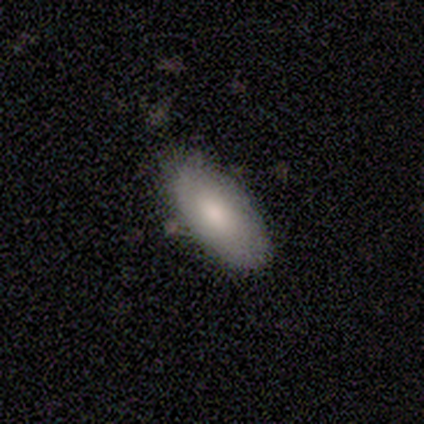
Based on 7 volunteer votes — smooth_or_featured: smooth (p=0.86) [alt: featured or disk p=0.14]
how_rounded: in between (p=0.83) [alt: cigar-shaped p=0.17]
merging: none (p=0.71) [alt: minor disturbance p=0.29]